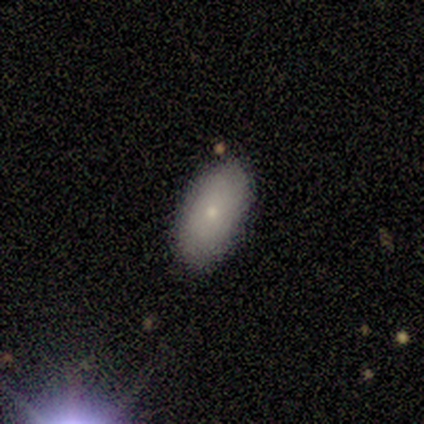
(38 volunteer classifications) A smooth galaxy with no disk features (87%) that is in between round and cigar-shaped (88%).

Vote fractions:
- Smooth or featured? smooth: 87% / featured or disk: 11% / star or artifact: 3%
- How rounded? in between: 88% / cigar-shaped: 12% / round: 0%
- Merging? none: 92% / minor disturbance: 8% / major disturbance: 0% / merger: 0%